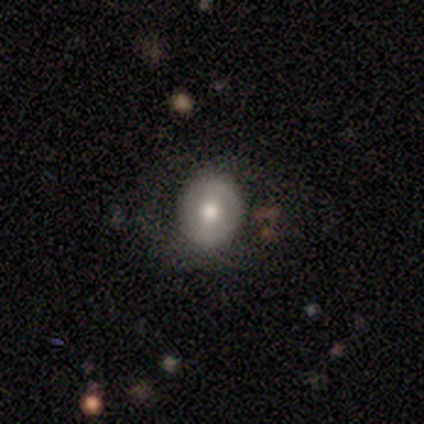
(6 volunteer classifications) This appears to be a smooth galaxy with no disk features (67%) that is round (75%). Merging: none (80%).